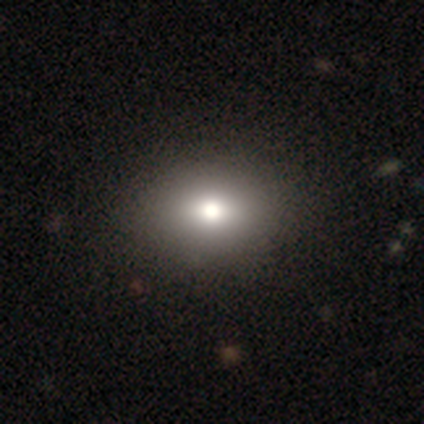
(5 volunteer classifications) Volunteers were most divided on "smooth or featured" (2-way tie): featured or disk: 40%, star or artifact: 40%, smooth: 20%; "bulge size" (2-way tie): dominant: 50%, moderate: 50%, large: 0%, small: 0%, none: 0%. More confident: edge-on disk — no (100%); bar — no (100%); spiral arms — no (100%); merging — none (100%).